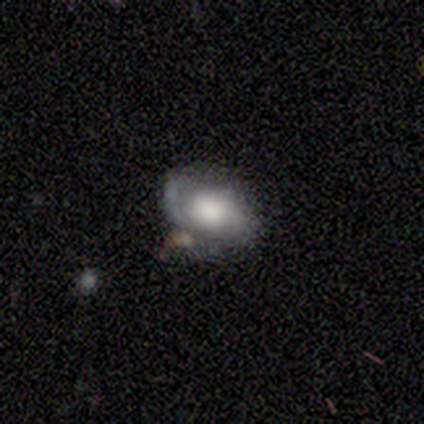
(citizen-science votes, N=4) Smooth or featured: featured or disk — 75% (smooth — 25%)
Edge-on disk: no — 100%
Bar: no — 100%
Spiral arms: yes — 100%
Spiral winding: tight — 67% (loose — 33%)
Spiral arm count: 2 — 100%
Bulge size: large — 67% (dominant — 33%)
Merging: none — 75% (minor disturbance — 25%)